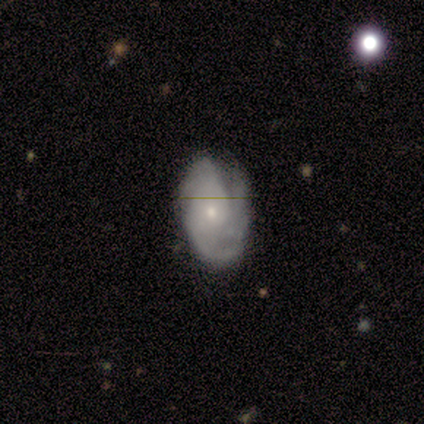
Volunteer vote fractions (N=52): This appears to be a featured or disk galaxy (81%) with no bar (83%), 3 (49%) tight (56%) spiral arms (98%) and a small central bulge (74%). Merging: none (53%).